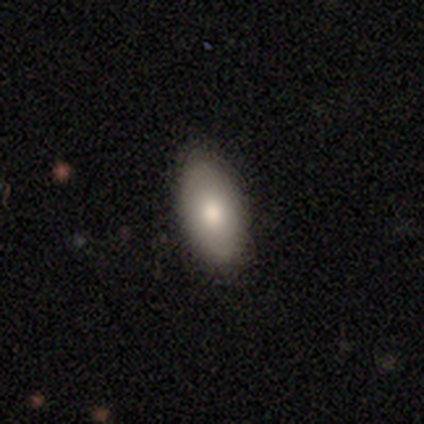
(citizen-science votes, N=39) Overall: smooth (77%). How rounded: in between (97%). Merging: none (76%).